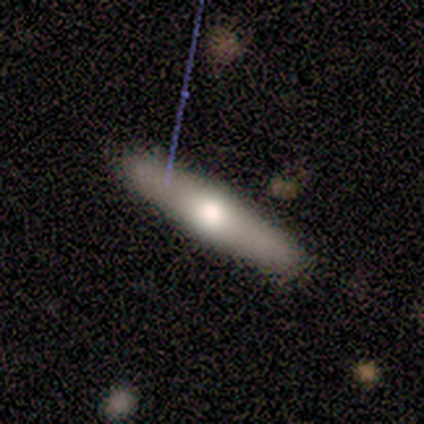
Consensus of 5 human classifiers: Overall: smooth (60%; featured or disk 40%). How rounded: cigar-shaped (100%). Merging: none (100%).